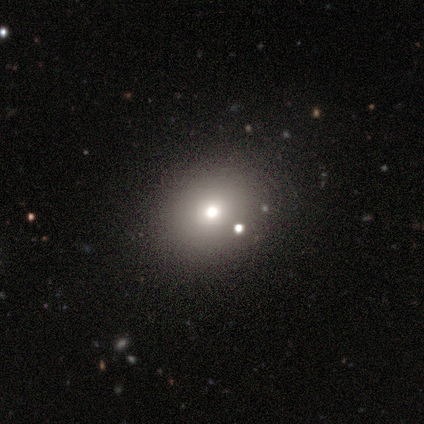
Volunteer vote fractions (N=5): This is marginally a smooth galaxy (40%, tied with featured or disk). How rounded: clearly in between (100%). Merging: clearly none (100%).